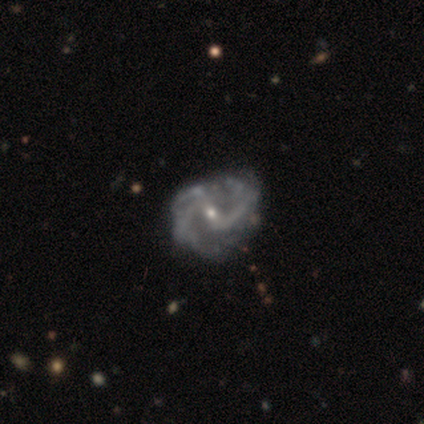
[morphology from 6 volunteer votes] smooth-or-featured: featured or disk: 100% | smooth: 0% | star or artifact: 0%
  disk-edge-on: no: 100% | yes: 0%
    bar: weak: 100% | strong: 0% | no: 0%
    has-spiral-arms: yes: 100% | no: 0%
      spiral-winding: medium: 50% (tied) | loose: 50% (tied) | tight: 0%
      spiral-arm-count: 2: 83% | 3: 17% | 1: 0% | 4: 0% | more than 4: 0% | can't tell: 0%
    bulge-size: small: 100% | dominant: 0% | large: 0% | moderate: 0% | none: 0%
  merging: minor disturbance: 83% | none: 17% | major disturbance: 0% | merger: 0%